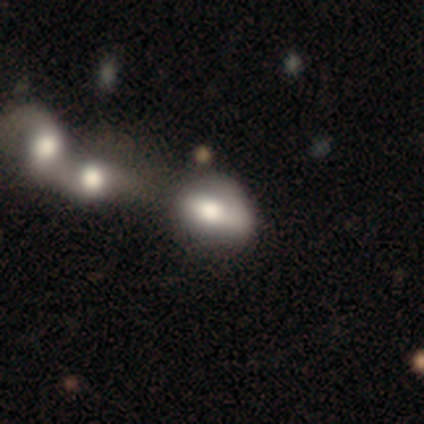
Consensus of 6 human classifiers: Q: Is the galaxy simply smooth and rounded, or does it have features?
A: smooth — 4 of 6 (67%).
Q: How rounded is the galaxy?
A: in between — 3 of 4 (75%).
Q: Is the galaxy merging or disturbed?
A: merger — 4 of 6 (67%).